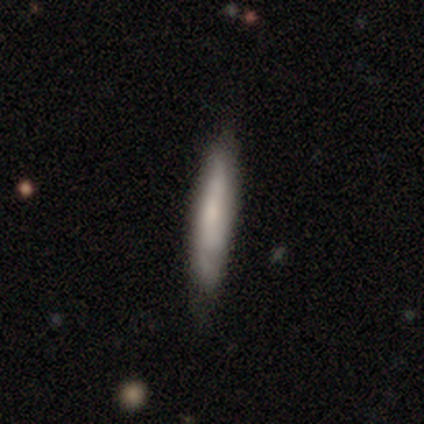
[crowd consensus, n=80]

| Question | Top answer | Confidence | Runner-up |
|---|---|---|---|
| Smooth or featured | smooth | 61% | featured or disk (34%) |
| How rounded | cigar-shaped | 90% | in between (8%) |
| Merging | none | 36% | minor disturbance (13%) |